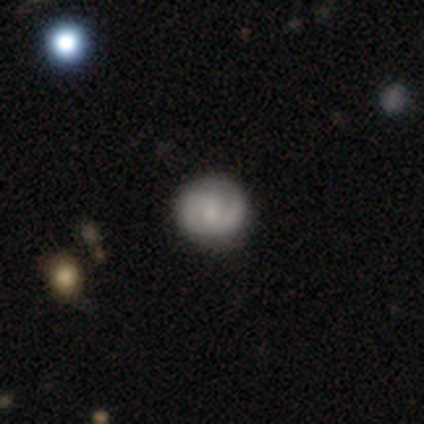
Morphology: type=featured or disk (60%); edge-on=no (100%); bar=no (67%); spiral arms=yes (67%); winding=tight (100%); arm count=1 (50%, tied with 2); bulge=moderate (33%, tied with small and none); merging=none (100%).